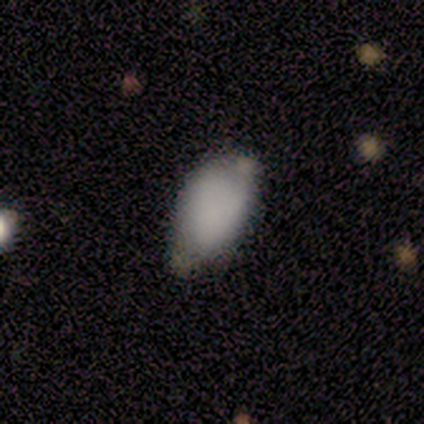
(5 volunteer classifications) Smooth or featured: smooth — 100%
How rounded: in between — 100%
Merging: none — 80% (minor disturbance — 20%)